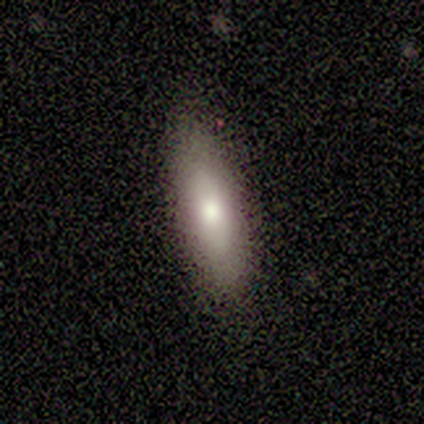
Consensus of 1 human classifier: A featured or disk galaxy (100%) with no bar (100%), no spiral arms (100%) and a moderate central bulge (100%). Merging: none (100%).